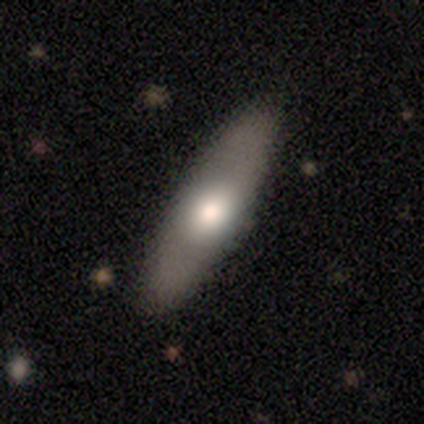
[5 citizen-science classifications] Smooth or featured?
  - smooth: 60% *
  - featured or disk: 40%
  - star or artifact: 0%
How rounded?
  - in between: 100% *
  - round: 0%
  - cigar-shaped: 0%
Merging?
  - none: 100% *
  - minor disturbance: 0%
  - major disturbance: 0%
  - merger: 0%